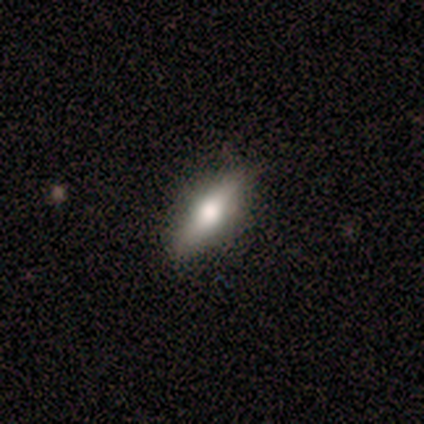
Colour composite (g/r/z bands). It shows a smooth galaxy with no disk features (100%) that is in between round and cigar-shaped (80%). Merging: none (80%).